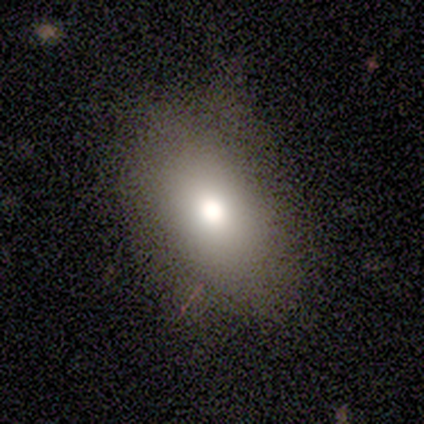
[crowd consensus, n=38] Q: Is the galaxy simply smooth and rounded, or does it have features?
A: smooth — 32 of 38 (84%).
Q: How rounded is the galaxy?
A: in between — 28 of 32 (88%).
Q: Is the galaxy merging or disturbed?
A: none — 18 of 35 (51%).